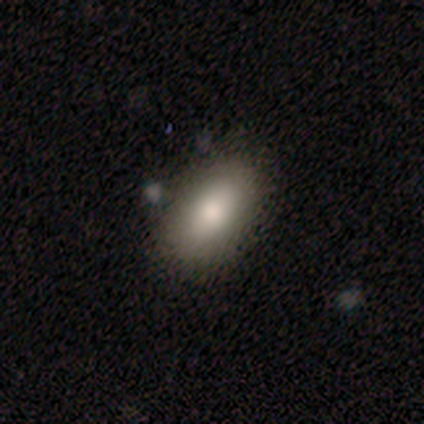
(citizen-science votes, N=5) Smooth or featured: smooth — 100%
How rounded: in between — 100%
Merging: none — 60% (minor disturbance — 20%)